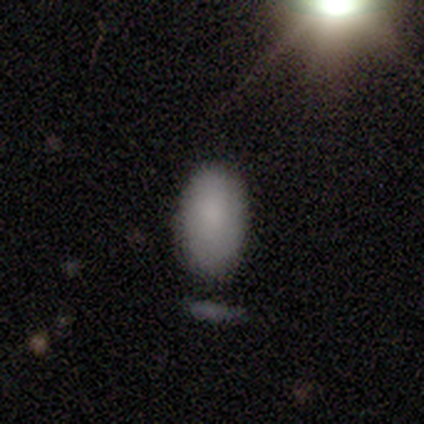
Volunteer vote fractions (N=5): smooth_or_featured: smooth (p=1.00)
how_rounded: in between (p=1.00)
merging: none (p=0.60) [alt: minor disturbance p=0.40]